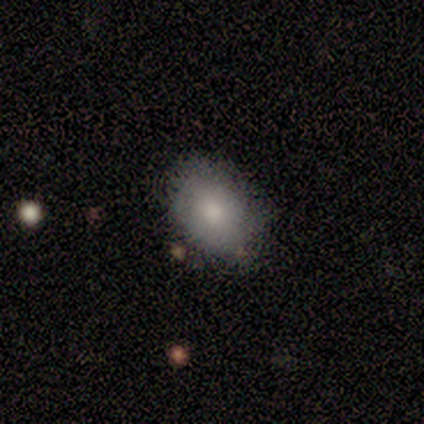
Overall: smooth (71%). How rounded: in between (60%; round 40%). Merging: none (71%).